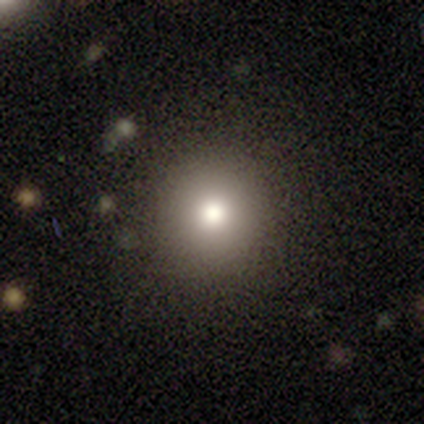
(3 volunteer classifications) Overall: smooth (100%). How rounded: round (100%). Merging: none (100%).